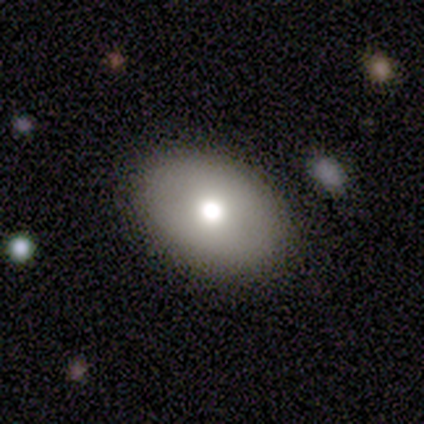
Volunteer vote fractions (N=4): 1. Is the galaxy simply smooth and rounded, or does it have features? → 100% smooth, 0% featured or disk, 0% star or artifact.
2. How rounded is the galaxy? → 50% round (tied), 50% in between (tied), 0% cigar-shaped.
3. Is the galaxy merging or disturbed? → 75% none, 25% minor disturbance, 0% major disturbance, 0% merger.